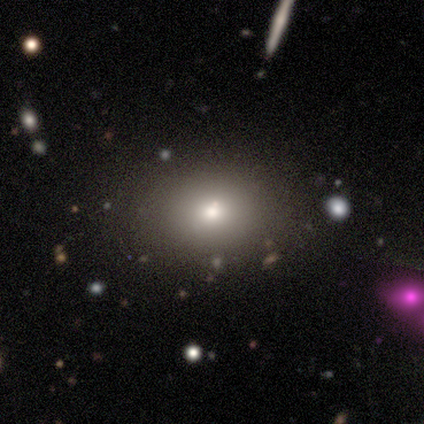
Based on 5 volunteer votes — This is clearly a smooth galaxy (80%). How rounded: likely in between (75%). Merging: clearly none (80%).